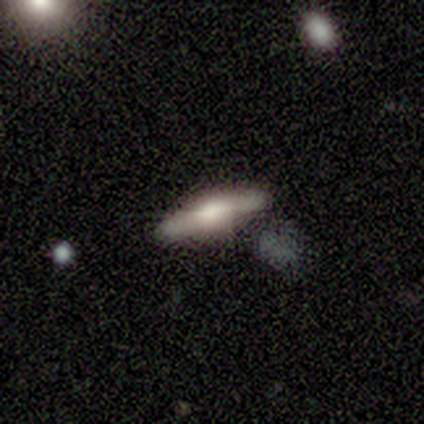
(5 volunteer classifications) This is likely a smooth galaxy (60%). How rounded: clearly cigar-shaped (100%). Merging: clearly none (80%).